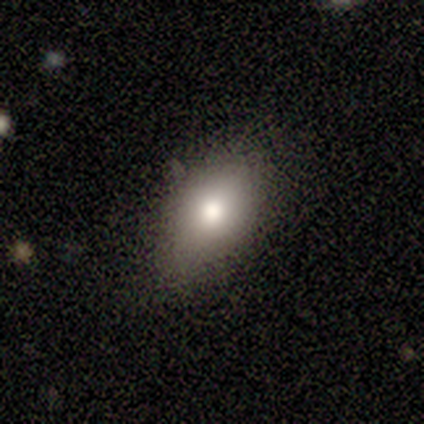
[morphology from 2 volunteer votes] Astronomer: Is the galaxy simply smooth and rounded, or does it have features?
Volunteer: smooth — 100%.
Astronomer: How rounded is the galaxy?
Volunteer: round — 50%, tied with in between at 50%.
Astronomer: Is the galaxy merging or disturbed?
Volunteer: none — 50%, tied with minor disturbance at 50%.